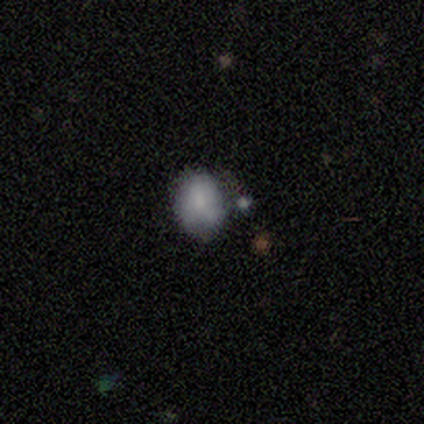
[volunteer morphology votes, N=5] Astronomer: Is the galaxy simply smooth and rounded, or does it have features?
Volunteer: smooth — 100%.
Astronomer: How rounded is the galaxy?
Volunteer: in between — 80%.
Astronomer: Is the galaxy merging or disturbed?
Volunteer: none — 60%.